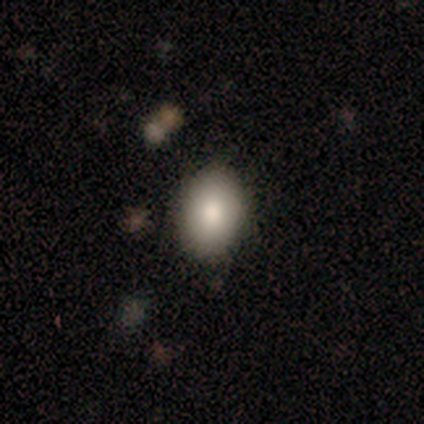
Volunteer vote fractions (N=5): Smooth or featured? 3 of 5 (60%) said smooth. How rounded? 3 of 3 (100%) said in between. Merging? 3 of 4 (75%) said none.